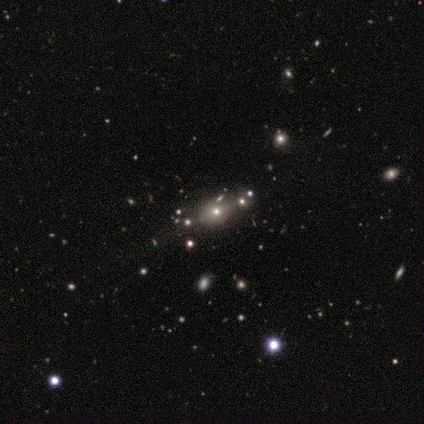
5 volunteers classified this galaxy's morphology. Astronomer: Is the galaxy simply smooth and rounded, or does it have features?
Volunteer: smooth — 60% (runner-up: star or artifact, 40%).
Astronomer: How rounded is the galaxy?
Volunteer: round — 67%.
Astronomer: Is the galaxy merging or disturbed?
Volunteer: none — 67%.